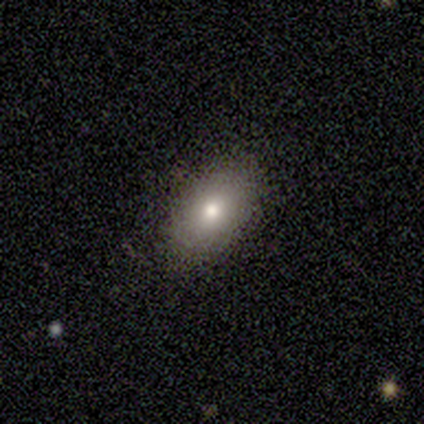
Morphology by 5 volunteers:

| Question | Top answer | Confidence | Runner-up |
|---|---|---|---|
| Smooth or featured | smooth | 40% | tied: featured or disk (40%) |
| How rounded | in between | 100% | — |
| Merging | none | 100% | — |